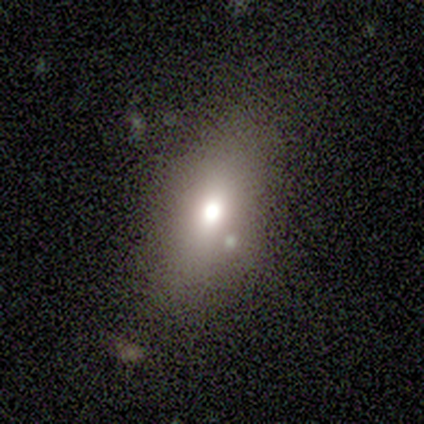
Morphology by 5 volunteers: Smooth or featured? 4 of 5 (80%) said smooth. How rounded? 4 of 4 (100%) said in between. Merging? 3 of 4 (75%) said none.